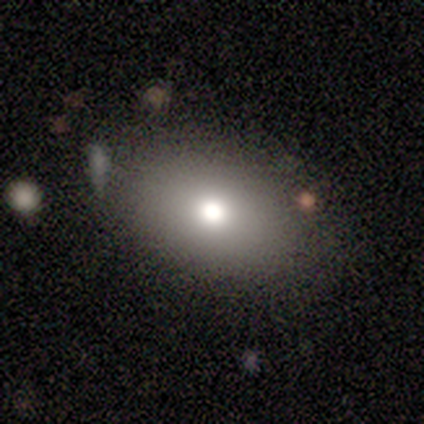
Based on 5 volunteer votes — Q: Smooth or featured?
A: smooth (60%); runner-up: featured or disk (20%)
Q: How rounded?
A: in between (100%)
Q: Merging?
A: none (75%); runner-up: minor disturbance (25%)